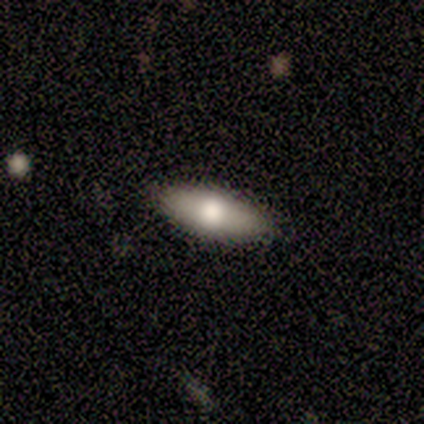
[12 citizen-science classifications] Smooth or featured?
  - smooth: 67% *
  - featured or disk: 33%
  - star or artifact: 0%
How rounded?
  - in between: 75% *
  - cigar-shaped: 25%
  - round: 0%
Merging?
  - none: 83% *
  - minor disturbance: 8%
  - major disturbance: 8%
  - merger: 0%